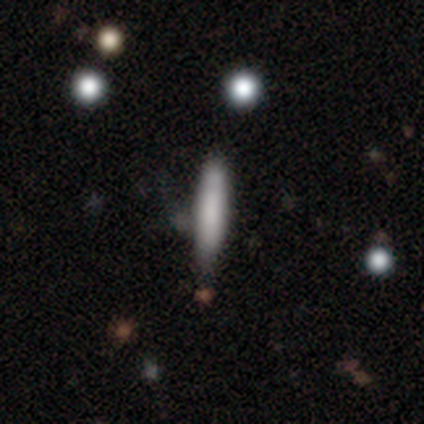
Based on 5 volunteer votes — smooth_or_featured: smooth (p=0.80) [alt: featured or disk p=0.20]
how_rounded: cigar-shaped (p=1.00)
merging: none (p=1.00)